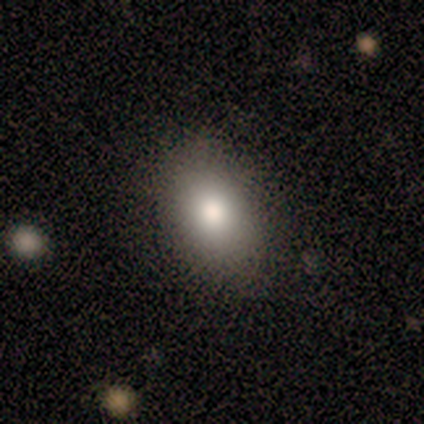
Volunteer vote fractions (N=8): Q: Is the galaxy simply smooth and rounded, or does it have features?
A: smooth — 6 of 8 (75%).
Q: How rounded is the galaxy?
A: in between — 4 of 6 (67%).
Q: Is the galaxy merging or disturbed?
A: none — 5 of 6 (83%).